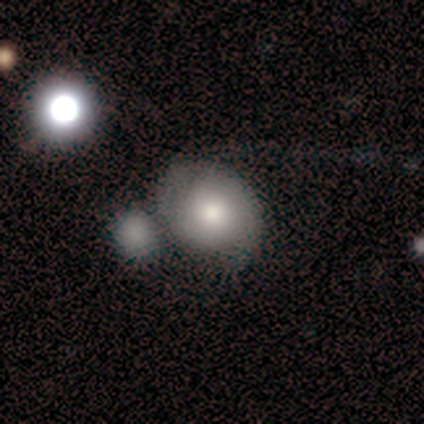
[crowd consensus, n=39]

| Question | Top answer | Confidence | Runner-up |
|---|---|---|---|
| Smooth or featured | smooth | 69% | featured or disk (31%) |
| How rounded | round | 63% | in between (37%) |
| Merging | merger | 46% | none (38%) |